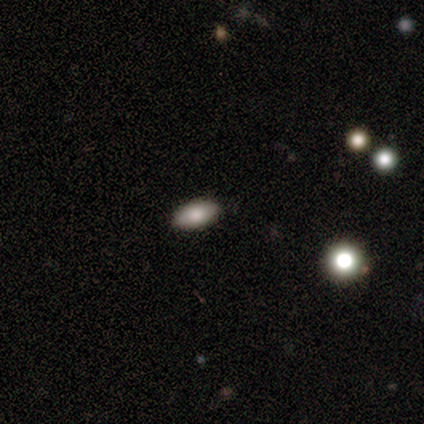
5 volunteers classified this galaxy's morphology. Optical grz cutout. It shows a smooth galaxy with no disk features (80%) that is round (75%). Merging: none (50%, tied with merger).